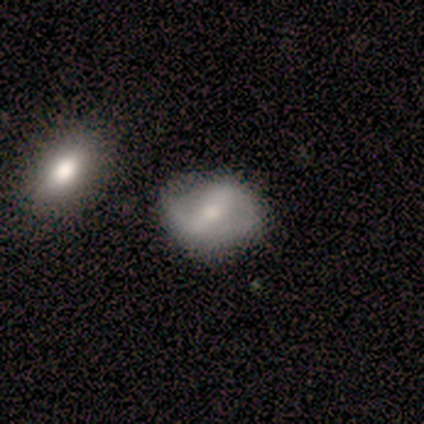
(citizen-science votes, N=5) smooth_or_featured: featured or disk (p=0.80) [alt: smooth p=0.20]
disk_edge_on: no (p=1.00)
bar: strong (p=1.00)
has_spiral_arms: yes (p=1.00)
spiral_winding: medium (p=0.50) [alt: tight p=0.25]
spiral_arm_count: 2 (p=1.00)
bulge_size: none (p=0.50) [alt: moderate p=0.25]
merging: none (p=1.00)